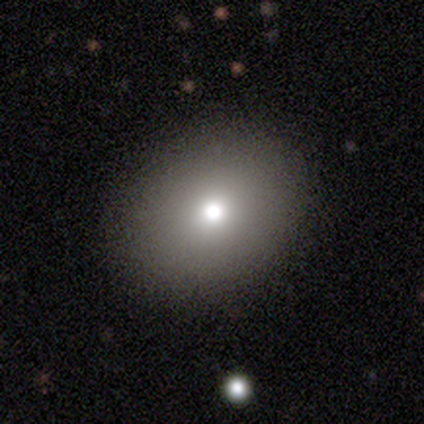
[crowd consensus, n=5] smooth_or_featured: smooth (p=0.80) [alt: star or artifact p=0.20]
how_rounded: in between (p=0.75) [alt: round p=0.25]
merging: none (p=1.00)